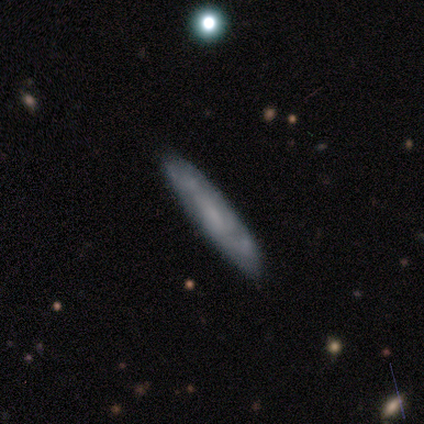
A smooth galaxy with no disk features (75%) that is cigar-shaped (67%).

Vote fractions:
- Smooth or featured? smooth: 75% / featured or disk: 25% / star or artifact: 0%
- How rounded? cigar-shaped: 67% / in between: 33% / round: 0%
- Merging? none: 100% / minor disturbance: 0% / major disturbance: 0% / merger: 0%